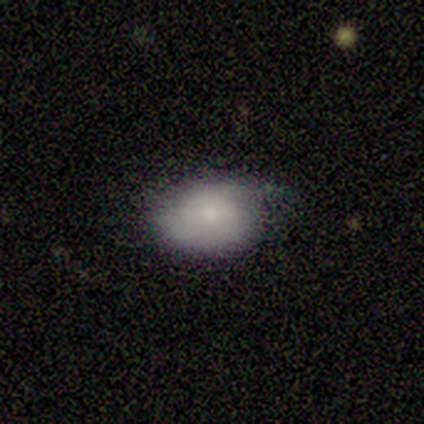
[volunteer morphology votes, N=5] A smooth galaxy with no disk features (100%) that is in between round and cigar-shaped (100%). Merging: none (60%).